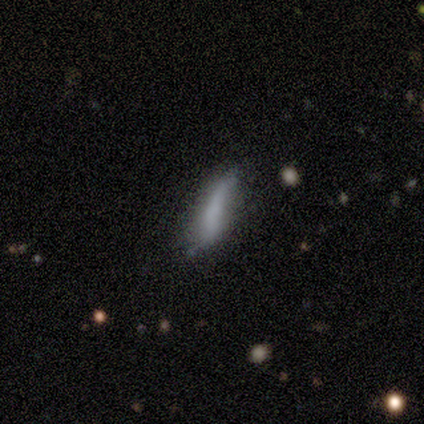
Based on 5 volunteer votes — Smooth or featured?
  - smooth: 60% *
  - featured or disk: 40%
  - star or artifact: 0%
How rounded?
  - cigar-shaped: 100% *
  - round: 0%
  - in between: 0%
Merging?
  - minor disturbance: 60% *
  - none: 40%
  - major disturbance: 0%
  - merger: 0%